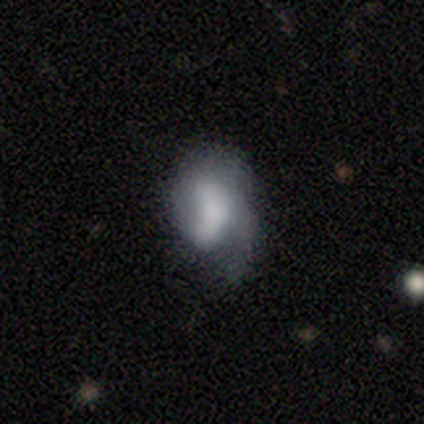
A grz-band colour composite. It shows a featured or disk galaxy (52%) with no bar (70%), 1 (60%) medium (47%) spiral arms (65%) and a large central bulge (39%). Merging: minor disturbance (36%).